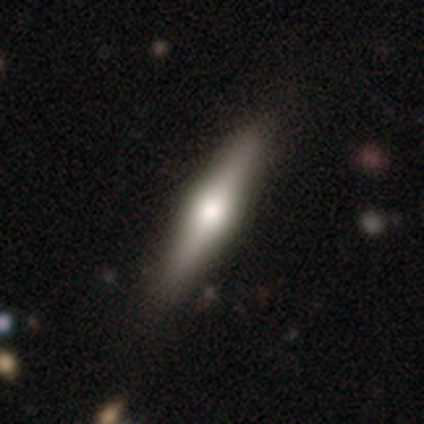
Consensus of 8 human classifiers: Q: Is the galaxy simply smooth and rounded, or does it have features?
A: featured or disk — 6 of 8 (75%).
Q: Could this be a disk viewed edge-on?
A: yes — 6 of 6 (100%).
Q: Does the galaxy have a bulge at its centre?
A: rounded — 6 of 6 (100%).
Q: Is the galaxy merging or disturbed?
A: none — 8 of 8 (100%).